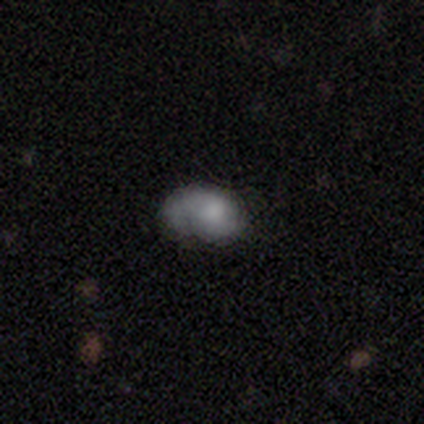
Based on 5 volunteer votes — This appears to be a smooth galaxy with no disk features (60%) that is in between round and cigar-shaped (67%). Merging: none (50%).